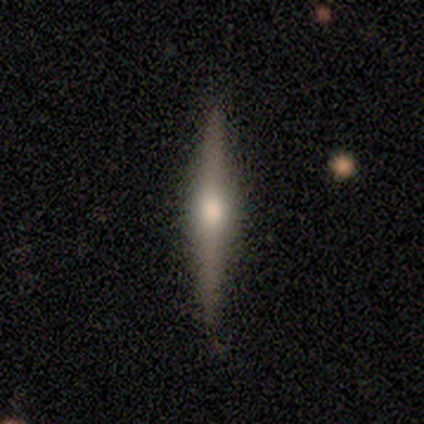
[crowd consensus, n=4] featured or disk 100%, smooth 0%, star or artifact 0%. Down the decision tree: edge-on disk — yes (100%); edge-on bulge — rounded (100%); merging — none (100%).